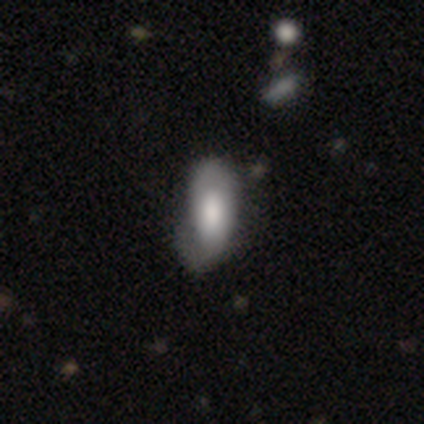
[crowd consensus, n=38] smooth_or_featured: smooth (p=0.55) [alt: featured or disk p=0.39]
how_rounded: in between (p=0.71) [alt: cigar-shaped p=0.29]
merging: minor disturbance (p=0.25) [alt: none p=0.19]